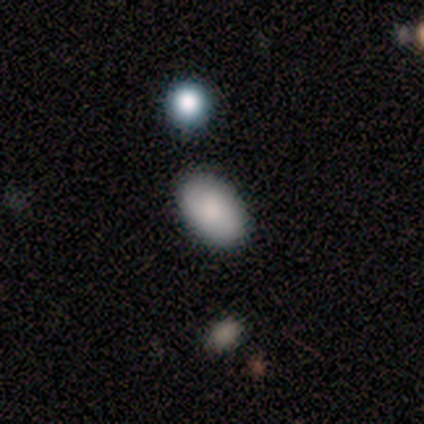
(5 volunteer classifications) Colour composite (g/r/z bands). It shows a smooth galaxy with no disk features (80%) that is in between round and cigar-shaped (75%). Merging: none (50%).